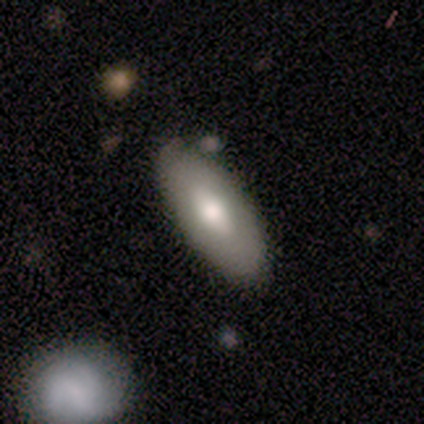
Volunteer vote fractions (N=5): A smooth galaxy with no disk features (40%, tied with featured or disk) that is in between round and cigar-shaped (100%).

Vote fractions:
- Smooth or featured? smooth: 40% (tied) / featured or disk: 40% (tied) / star or artifact: 20%
- How rounded? in between: 100% / round: 0% / cigar-shaped: 0%
- Merging? none: 100% / minor disturbance: 0% / major disturbance: 0% / merger: 0%